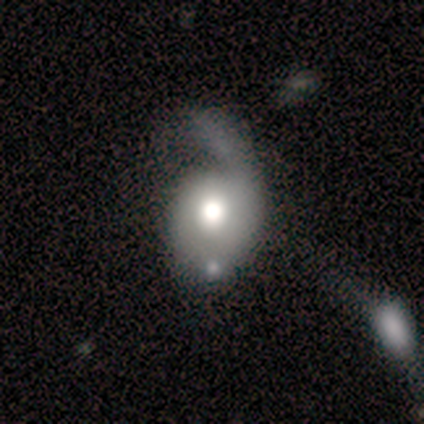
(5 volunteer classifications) This appears to be a featured or disk galaxy (80%) with no bar (100%), 1 (67%) medium (67%) spiral arms (100%) and a moderate central bulge (100%). Merging: major disturbance (50%).